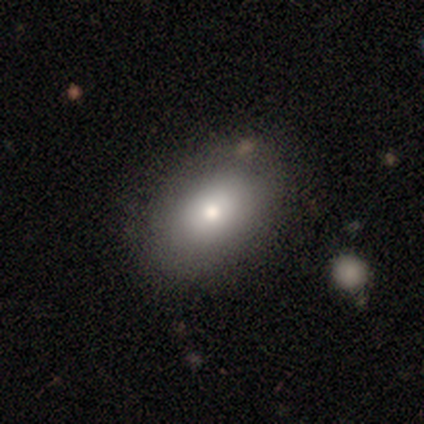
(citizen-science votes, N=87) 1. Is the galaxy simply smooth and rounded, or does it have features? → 77% smooth, 13% star or artifact, 10% featured or disk.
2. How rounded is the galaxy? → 88% in between, 10% round, 1% cigar-shaped.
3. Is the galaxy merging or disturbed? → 86% none, 12% minor disturbance, 1% major disturbance, 1% merger.